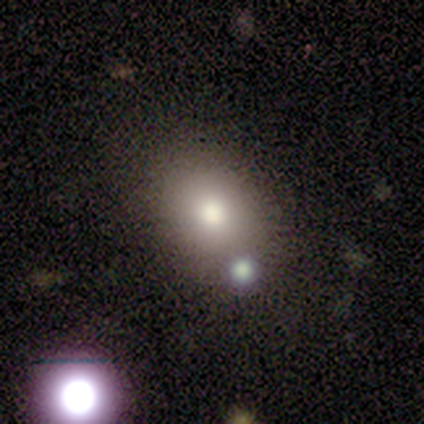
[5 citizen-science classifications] This appears to be a smooth galaxy with no disk features (100%) that is in between round and cigar-shaped (60%). Merging: none (80%).